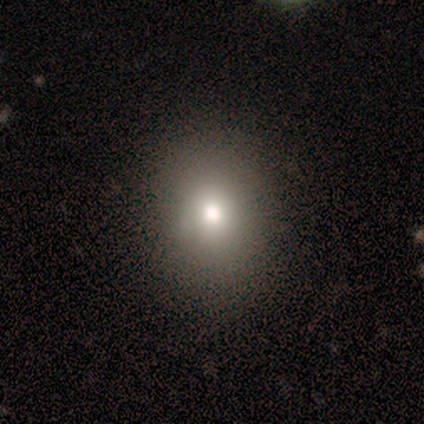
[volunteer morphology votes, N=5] Volunteers were most divided on "smooth or featured": featured or disk: 60%, smooth: 40%, star or artifact: 0%. More confident: edge-on disk — no (100%); bar — no (100%); spiral arms — no (100%); bulge size — moderate (100%); merging — none (100%).